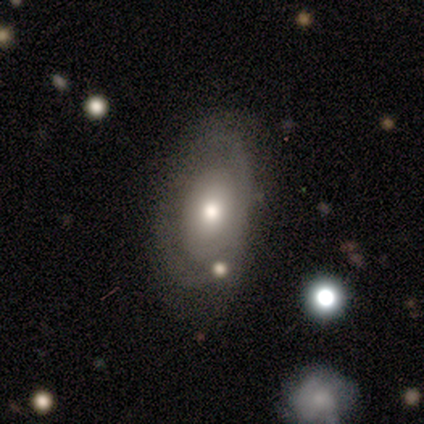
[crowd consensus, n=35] This is possibly a featured or disk galaxy (51%). It is clearly not viewed edge-on (100%). Bar: clearly no (89%). Spiral arm pattern: possibly yes (56%). Spiral arm count: possibly 2 (50%). Spiral winding: possibly tight (50%). Central bulge: likely moderate (61%). Merging: likely none (78%).